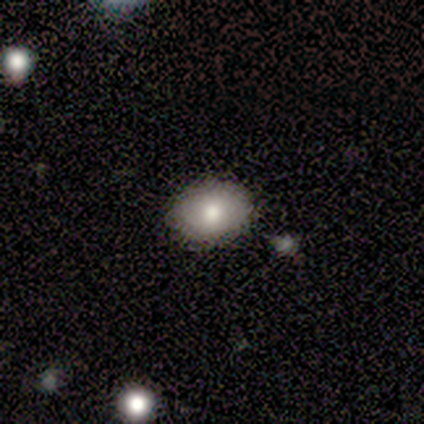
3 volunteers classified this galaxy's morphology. smooth_or_featured: smooth (p=0.67) [alt: featured or disk p=0.33]
how_rounded: in between (p=1.00)
merging: none (p=1.00)